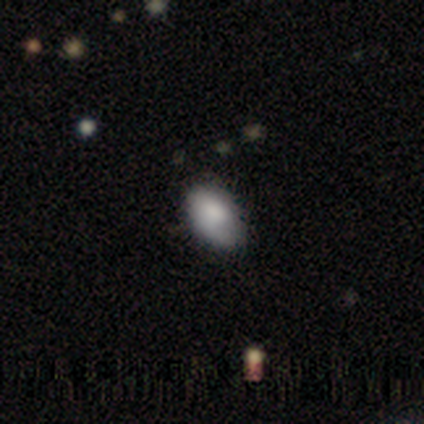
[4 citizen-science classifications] smooth_or_featured: smooth (p=0.75) [alt: featured or disk p=0.25]
how_rounded: in between (p=0.67) [alt: round p=0.33]
merging: none (p=0.50) [tied with: minor disturbance p=0.50]